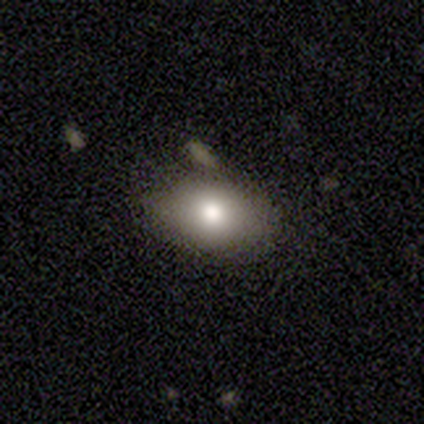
Volunteers were most divided on "smooth or featured": smooth: 60%, featured or disk: 22%, star or artifact: 18%. More confident: how rounded — in between (92%); merging — none (73%).